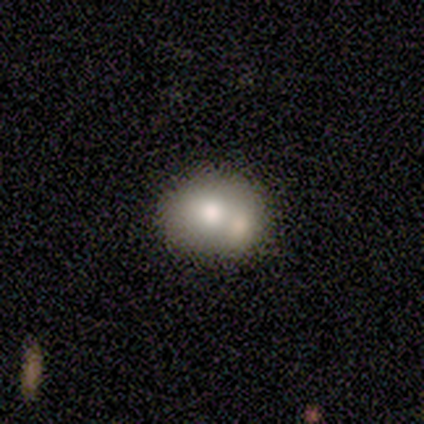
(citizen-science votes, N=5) smooth_or_featured: smooth (p=0.80) [alt: featured or disk p=0.20]
how_rounded: in between (p=0.75) [alt: round p=0.25]
merging: none (p=0.40) [tied with: merger p=0.40]